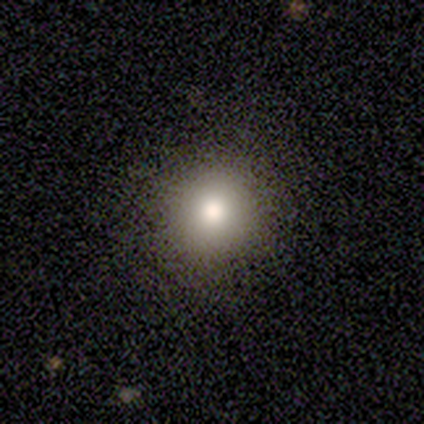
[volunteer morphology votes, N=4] A smooth galaxy with no disk features (75%) that is round (100%).

Vote fractions:
- Smooth or featured? smooth: 75% / star or artifact: 25% / featured or disk: 0%
- How rounded? round: 100% / in between: 0% / cigar-shaped: 0%
- Merging? none: 67% / minor disturbance: 33% / major disturbance: 0% / merger: 0%